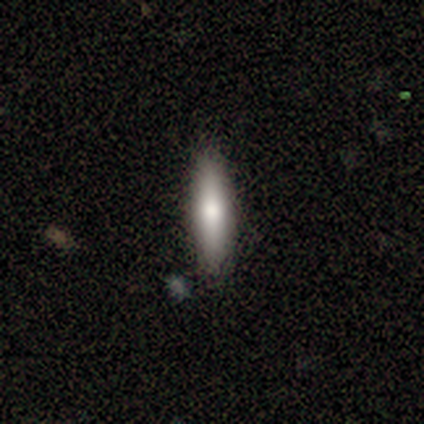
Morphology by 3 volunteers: This is clearly a smooth galaxy (100%). How rounded: clearly cigar-shaped (100%). Merging: likely none (67%).